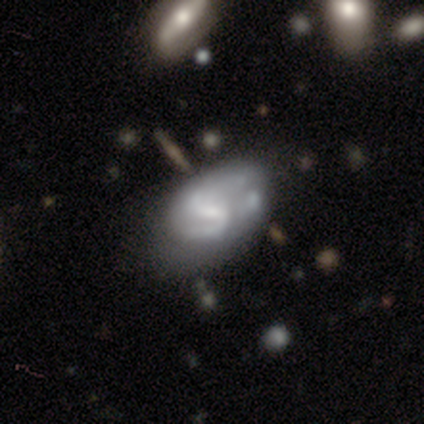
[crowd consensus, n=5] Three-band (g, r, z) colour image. It shows a featured or disk galaxy (80%) with a weak bar (75%), 2 (67%) medium (100%) spiral arms (75%) and a small central bulge (50%). Merging: none (40%).